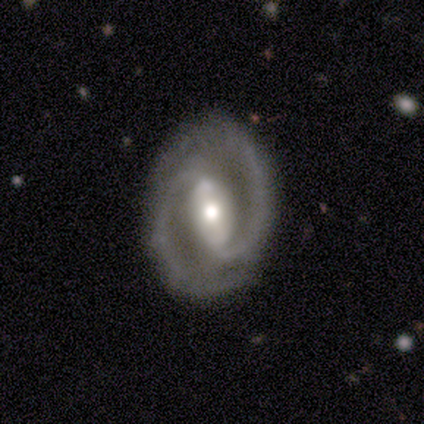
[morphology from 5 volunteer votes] Smooth or featured: featured or disk — 100%
Edge-on disk: no — 100%
Bar: strong — 40% (tied with no — 40%)
Spiral arms: yes — 100%
Spiral winding: medium — 80% (tight — 20%)
Spiral arm count: 2 — 100%
Bulge size: moderate — 60% (small — 40%)
Merging: none — 100%